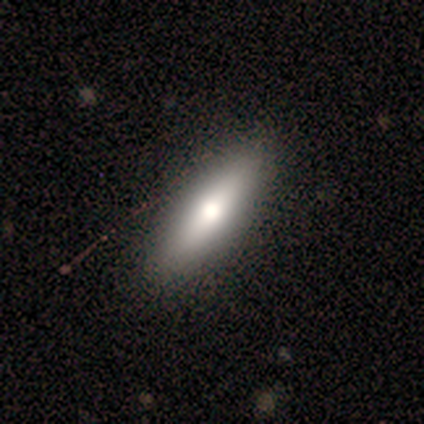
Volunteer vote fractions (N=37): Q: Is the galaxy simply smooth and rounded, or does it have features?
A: smooth — 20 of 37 (54%).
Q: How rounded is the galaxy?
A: in between — 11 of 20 (55%).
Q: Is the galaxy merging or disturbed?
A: none — 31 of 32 (97%).